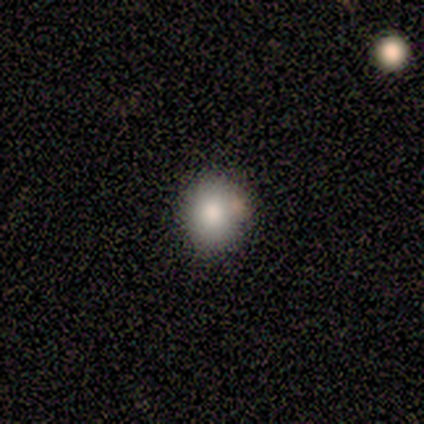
A smooth galaxy with no disk features (80%) that is round (88%). Merging: none (78%).